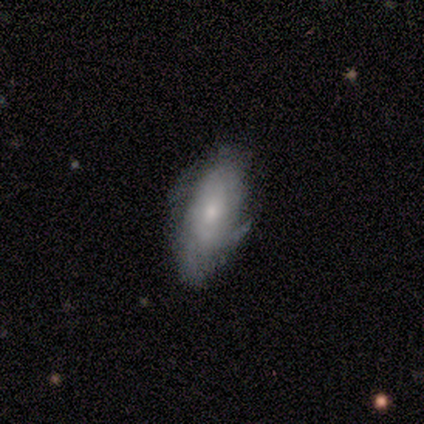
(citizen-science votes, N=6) Overall: smooth (67%). How rounded: in between (50%, tied with cigar-shaped). Merging: none (80%).